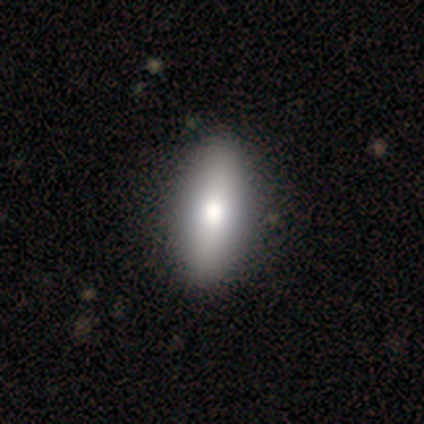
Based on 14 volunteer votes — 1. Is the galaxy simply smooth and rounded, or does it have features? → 86% smooth, 7% featured or disk, 7% star or artifact.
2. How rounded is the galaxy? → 83% in between, 17% cigar-shaped, 0% round.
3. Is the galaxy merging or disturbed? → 100% none, 0% minor disturbance, 0% major disturbance, 0% merger.